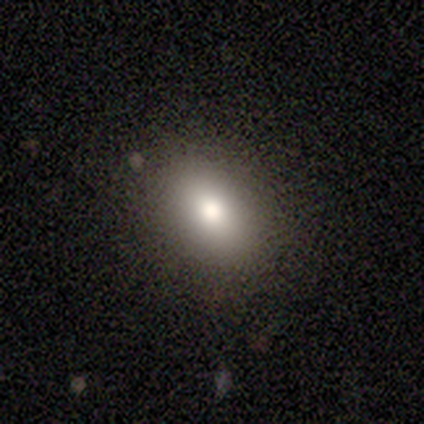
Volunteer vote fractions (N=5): This appears to be a smooth galaxy with no disk features (80%) that is in between round and cigar-shaped (75%). Merging: none (100%).